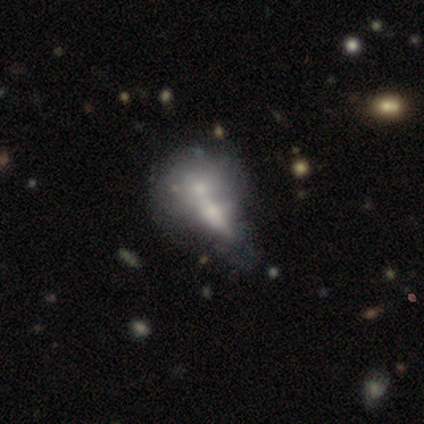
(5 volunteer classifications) featured or disk 60%, smooth 40%, star or artifact 0%. Down the decision tree: edge-on disk — no (100%); bar — no (100%); spiral arms — no (67%); bulge size — small (100%); merging — minor disturbance (40%).